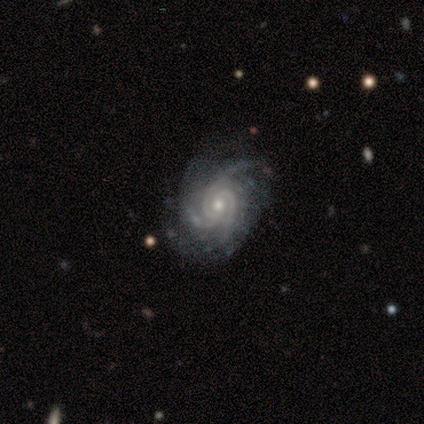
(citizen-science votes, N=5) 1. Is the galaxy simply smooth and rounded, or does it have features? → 100% featured or disk, 0% smooth, 0% star or artifact.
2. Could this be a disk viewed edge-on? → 100% no, 0% yes.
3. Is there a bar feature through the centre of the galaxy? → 60% no, 40% weak, 0% strong.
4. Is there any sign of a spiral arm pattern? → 100% yes, 0% no.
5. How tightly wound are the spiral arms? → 40% tight (tied), 40% medium (tied), 20% loose.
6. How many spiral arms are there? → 80% 3, 20% can't tell, 0% 1, 0% 2, 0% 4, 0% more than 4.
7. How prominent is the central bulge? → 60% small, 40% moderate, 0% dominant, 0% large, 0% none.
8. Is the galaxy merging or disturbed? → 60% none, 40% minor disturbance, 0% major disturbance, 0% merger.